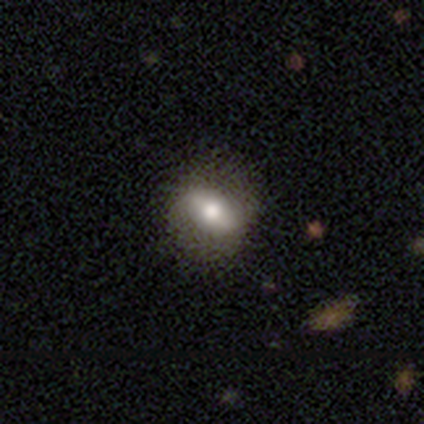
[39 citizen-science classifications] smooth_or_featured: smooth (p=0.54) [alt: featured or disk p=0.38]
how_rounded: in between (p=0.62) [alt: round p=0.33]
merging: none (p=0.64) [alt: minor disturbance p=0.11]